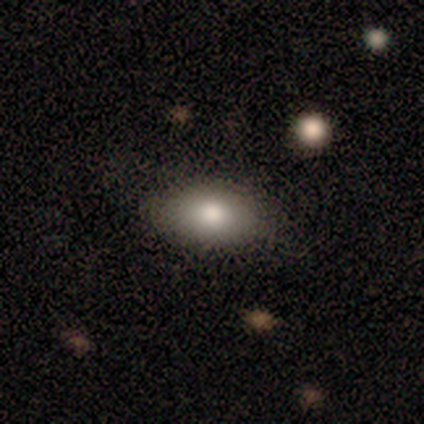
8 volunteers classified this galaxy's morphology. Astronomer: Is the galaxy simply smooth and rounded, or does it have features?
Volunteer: smooth — 100%.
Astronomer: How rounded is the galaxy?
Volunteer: in between — 100%.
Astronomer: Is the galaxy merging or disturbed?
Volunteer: none — 75%.